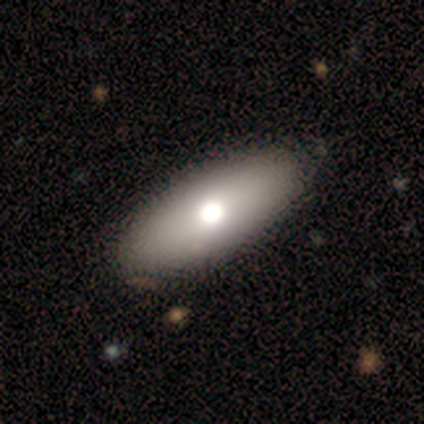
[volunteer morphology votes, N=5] Q: Smooth or featured?
A: smooth (60%); runner-up: featured or disk (40%)
Q: How rounded?
A: in between (100%)
Q: Merging?
A: none (60%); runner-up: major disturbance (20%)